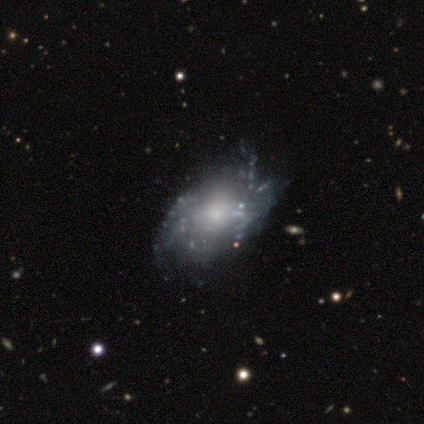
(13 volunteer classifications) smooth_or_featured: featured or disk (p=0.62) [alt: smooth p=0.38]
disk_edge_on: no (p=0.88) [alt: yes p=0.12]
bar: no (p=0.71) [alt: weak p=0.29]
has_spiral_arms: no (p=0.57) [alt: yes p=0.43]
bulge_size: small (p=0.71) [alt: moderate p=0.29]
merging: minor disturbance (p=0.46) [alt: none p=0.31]